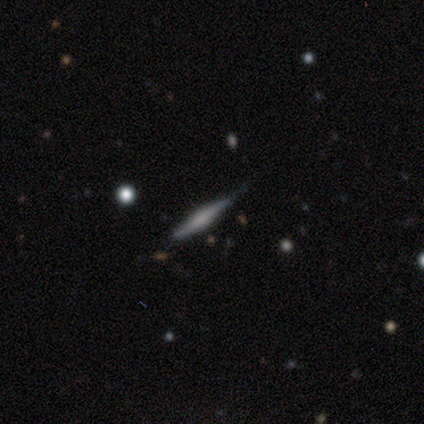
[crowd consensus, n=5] Morphology: type=featured or disk (100%); edge-on=yes (100%); edge-on bulge=boxy (60%); merging=none (80%).